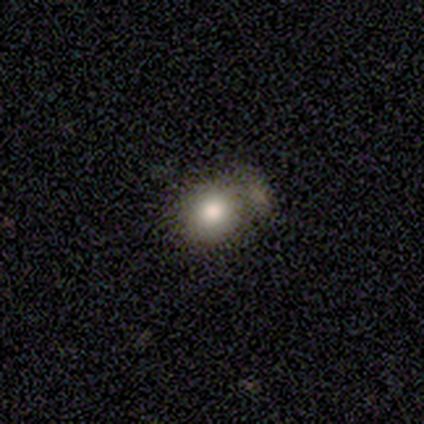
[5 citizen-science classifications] This appears to be a smooth galaxy with no disk features (80%) that is round (100%). Merging: minor disturbance (50%).